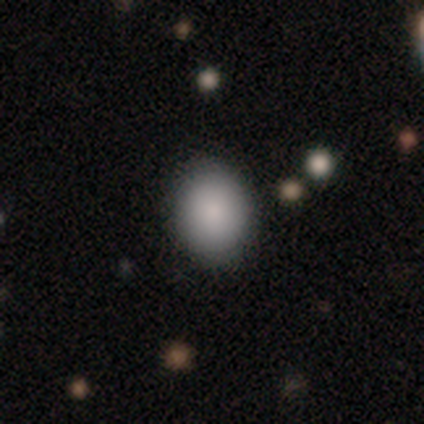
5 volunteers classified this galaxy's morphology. This is clearly a smooth galaxy (100%). How rounded: likely in between (60%). Merging: clearly none (80%).